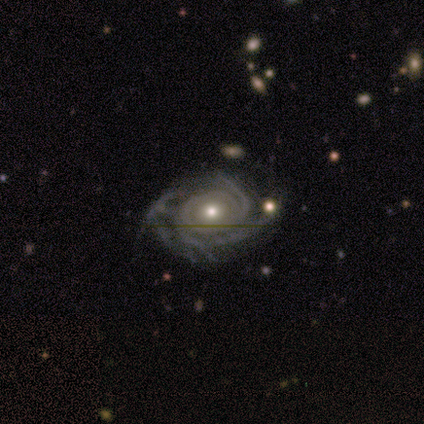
Smooth or featured: featured or disk — 100%
Edge-on disk: no — 100%
Bar: no — 80% (weak — 20%)
Spiral arms: yes — 100%
Spiral winding: tight — 60% (medium — 20%)
Spiral arm count: can't tell — 40% (2 — 20%)
Bulge size: moderate — 60% (small — 40%)
Merging: none — 100%